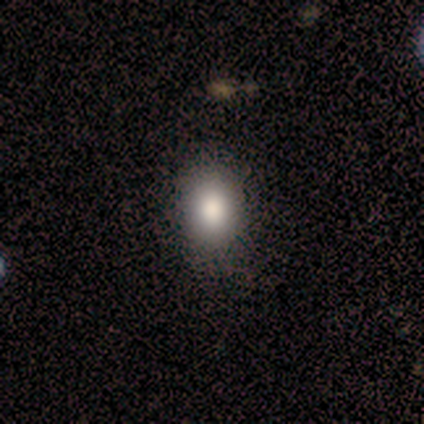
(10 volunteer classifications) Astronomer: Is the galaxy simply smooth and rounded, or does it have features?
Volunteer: smooth — 90%.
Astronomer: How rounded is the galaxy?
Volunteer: in between — 56% (runner-up: round, 33%).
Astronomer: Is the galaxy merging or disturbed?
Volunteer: none — 90%.